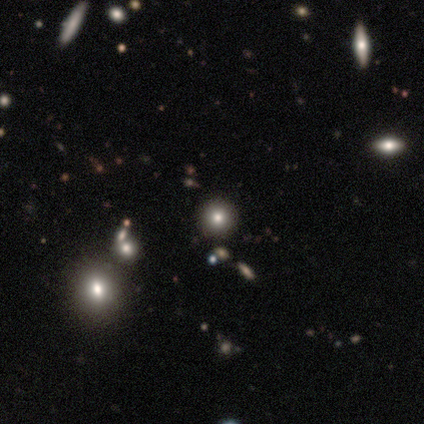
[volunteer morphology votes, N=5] Smooth or featured? star or artifact (60%)